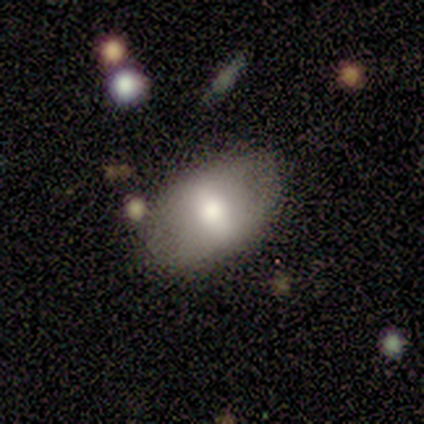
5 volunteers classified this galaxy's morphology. Smooth or featured? 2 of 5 (40%, tied with featured or disk) said smooth. How rounded? 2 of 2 (100%) said in between. Merging? 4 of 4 (100%) said none.